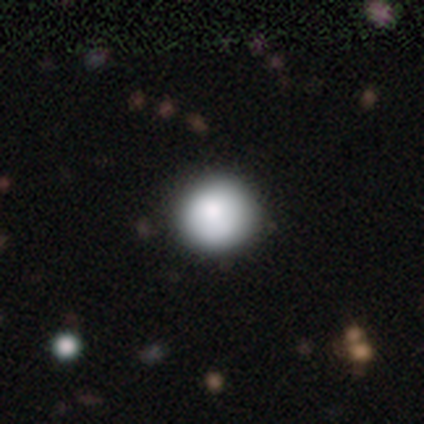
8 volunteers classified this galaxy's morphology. Smooth or featured?
  - smooth: 75% *
  - featured or disk: 12%
  - star or artifact: 12%
How rounded?
  - round: 100% *
  - in between: 0%
  - cigar-shaped: 0%
Merging?
  - none: 71% *
  - minor disturbance: 29%
  - major disturbance: 0%
  - merger: 0%